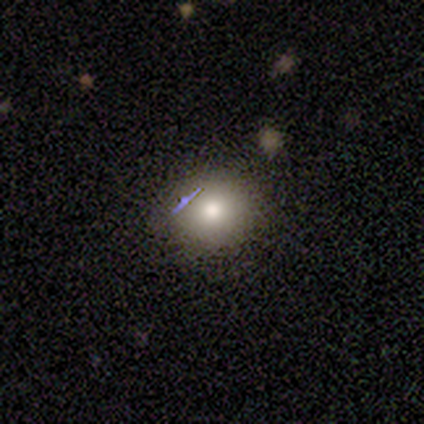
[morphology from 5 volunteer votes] Volunteers were most divided on "smooth or featured": smooth: 60%, featured or disk: 20%, star or artifact: 20%. More confident: how rounded — round (100%); merging — none (100%).